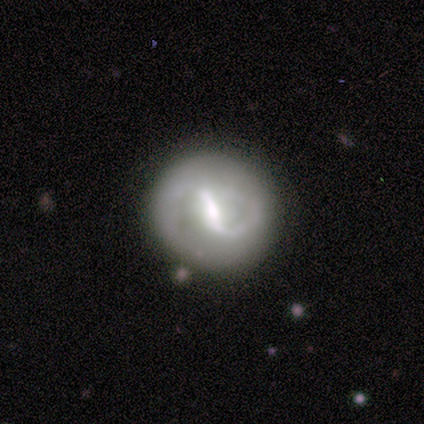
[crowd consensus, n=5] Overall: featured or disk (80%). Edge-on disk: no (100%). Bar: strong (50%, tied with weak). Spiral arms: yes (50%, tied with no). Spiral arm count: 2 (100%). Spiral winding: medium (50%, tied with loose). Bulge size: moderate (75%). Merging: none (100%).